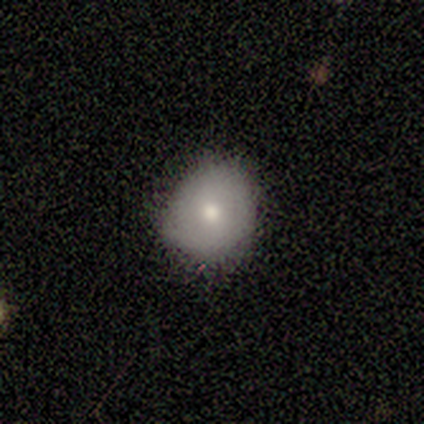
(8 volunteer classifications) smooth_or_featured: smooth (p=0.75) [alt: featured or disk p=0.25]
how_rounded: round (p=0.67) [alt: in between p=0.33]
merging: none (p=0.62) [alt: minor disturbance p=0.38]